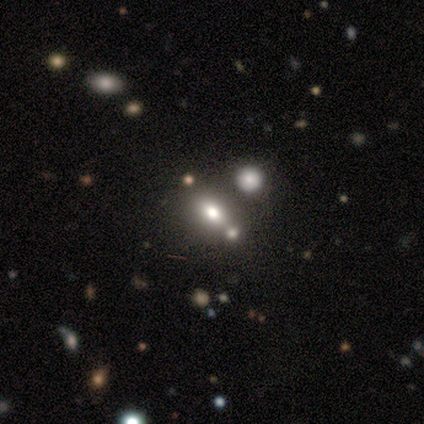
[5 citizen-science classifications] Smooth or featured: star or artifact — 60% (smooth — 40%)